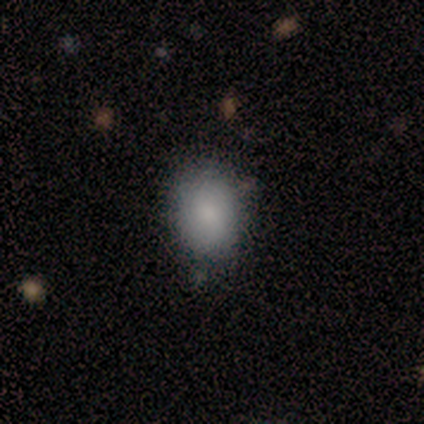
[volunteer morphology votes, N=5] smooth-or-featured: smooth: 100% | featured or disk: 0% | star or artifact: 0%
  how-rounded: in between: 60% | round: 40% | cigar-shaped: 0%
  merging: none: 100% | minor disturbance: 0% | major disturbance: 0% | merger: 0%